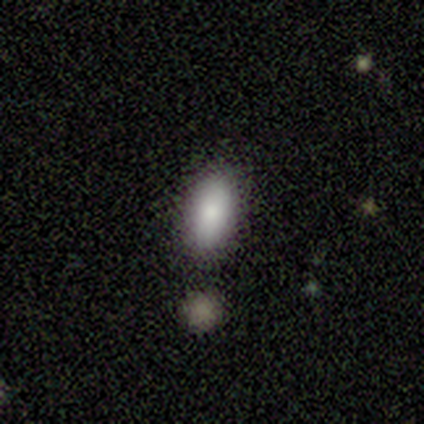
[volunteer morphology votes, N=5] A smooth galaxy with no disk features (100%) that is in between round and cigar-shaped (100%).

Vote fractions:
- Smooth or featured? smooth: 100% / featured or disk: 0% / star or artifact: 0%
- How rounded? in between: 100% / round: 0% / cigar-shaped: 0%
- Merging? minor disturbance: 40% / none: 20% / major disturbance: 20% / merger: 20%